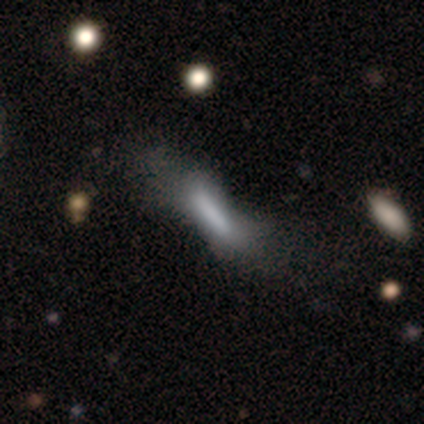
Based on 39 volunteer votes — Smooth or featured? 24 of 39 (62%) said smooth. How rounded? 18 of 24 (75%) said cigar-shaped. Merging? 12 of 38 (32%) said major disturbance.